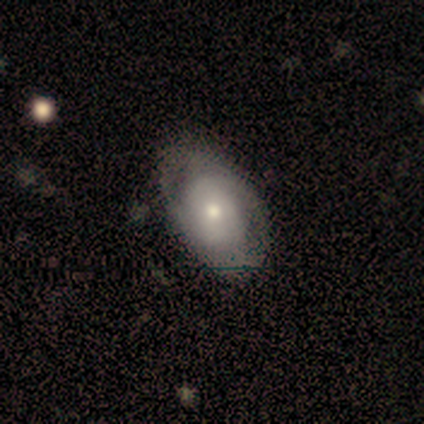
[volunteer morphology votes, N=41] This is possibly a smooth galaxy (54%). How rounded: clearly in between (82%). Merging: possibly none (50%).